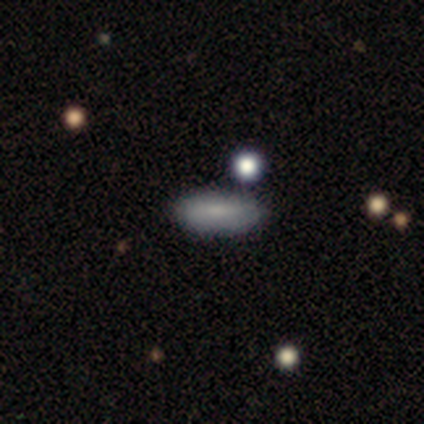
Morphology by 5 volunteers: smooth_or_featured: smooth (p=1.00)
how_rounded: in between (p=1.00)
merging: none (p=0.80) [alt: major disturbance p=0.20]